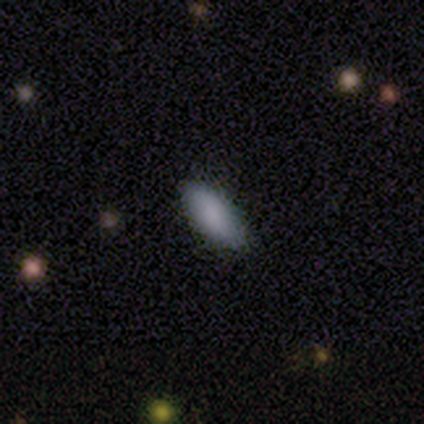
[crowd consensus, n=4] smooth-or-featured: smooth: 100% | featured or disk: 0% | star or artifact: 0%
  how-rounded: in between: 100% | round: 0% | cigar-shaped: 0%
  merging: none: 100% | minor disturbance: 0% | major disturbance: 0% | merger: 0%